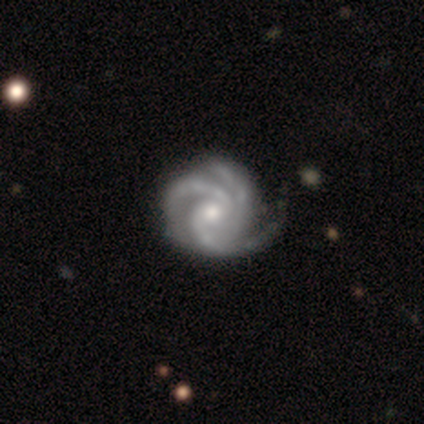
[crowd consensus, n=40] Smooth or featured?
  - featured or disk: 92% *
  - star or artifact: 5%
  - smooth: 2%
Edge-on disk?
  - no: 97% *
  - yes: 3%
Bar?
  - no: 92% *
  - weak: 8%
  - strong: 0%
Spiral arms?
  - yes: 100% *
  - no: 0%
Spiral winding?
  - tight: 50% *
  - medium: 42%
  - loose: 8%
Spiral arm count?
  - 3: 97% *
  - 2: 3%
  - 1: 0%
  - 4: 0%
  - more than 4: 0%
  - can't tell: 0%
Bulge size?
  - moderate: 58% *
  - small: 39%
  - none: 3%
  - dominant: 0%
  - large: 0%
Merging?
  - none: 50% *
  - minor disturbance: 13%
  - major disturbance: 3%
  - merger: 3%